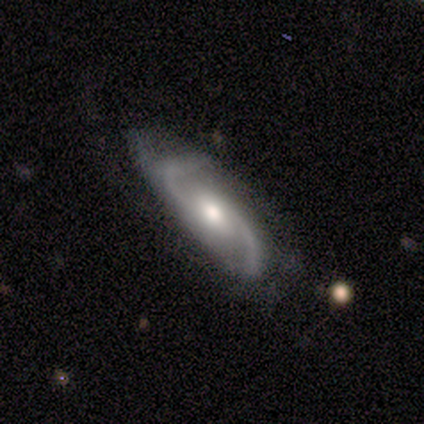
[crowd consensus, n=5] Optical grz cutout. It shows a featured or disk galaxy (100%) with a weak bar (60%), 2 (100%) loose (60%) spiral arms (100%) and a moderate central bulge (60%). Merging: none (80%).